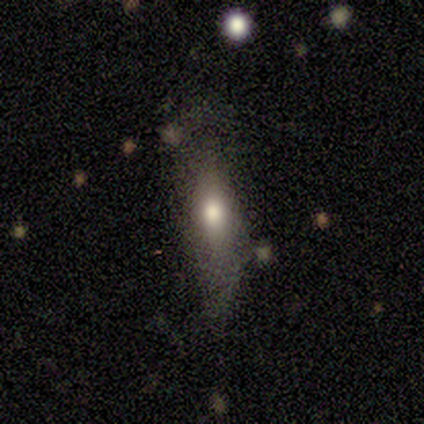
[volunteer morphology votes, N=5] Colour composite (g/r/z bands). It shows a smooth galaxy with no disk features (80%) that is in between round and cigar-shaped (50%, tied with cigar-shaped). Merging: none (50%).